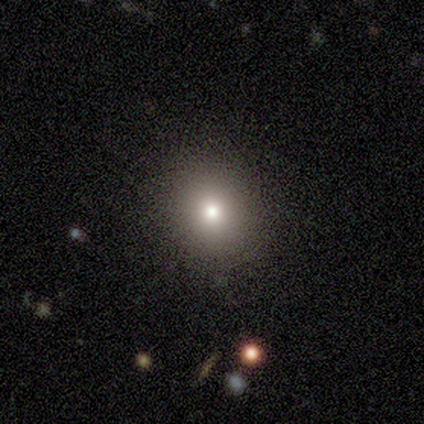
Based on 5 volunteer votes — This appears to be a smooth galaxy with no disk features (80%) that is round (100%). Merging: none (100%).